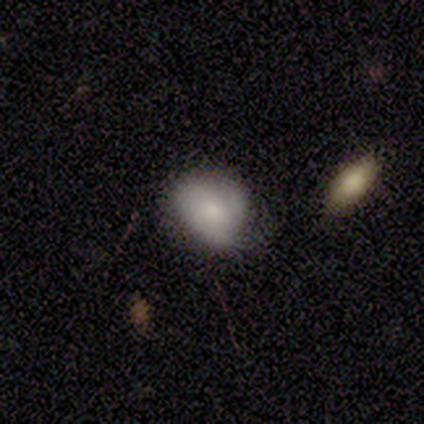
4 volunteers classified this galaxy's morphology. smooth_or_featured: smooth (p=0.75) [alt: featured or disk p=0.25]
how_rounded: in between (p=0.67) [alt: round p=0.33]
merging: none (p=0.50) [tied with: minor disturbance p=0.50]